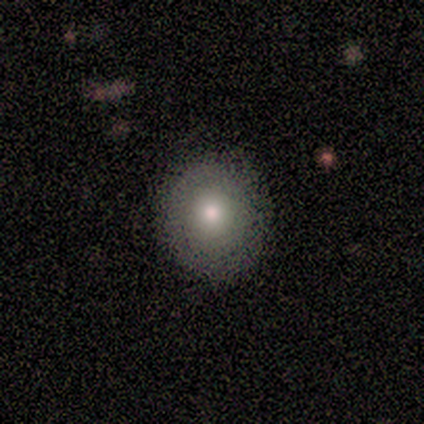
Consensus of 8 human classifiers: Smooth or featured: smooth — 75% (featured or disk — 12%)
How rounded: round — 83% (in between — 17%)
Merging: none — 100%